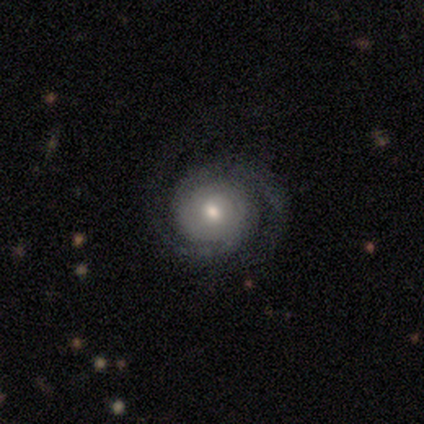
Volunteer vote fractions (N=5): smooth-or-featured: featured or disk: 80% | star or artifact: 20% | smooth: 0%
  disk-edge-on: no: 100% | yes: 0%
    bar: no: 50% | strong: 25% | weak: 25%
    has-spiral-arms: yes: 100% | no: 0%
      spiral-winding: tight: 75% | loose: 25% | medium: 0%
      spiral-arm-count: 2: 100% | 1: 0% | 3: 0% | 4: 0% | more than 4: 0% | can't tell: 0%
    bulge-size: small: 100% | dominant: 0% | large: 0% | moderate: 0% | none: 0%
  merging: none: 100% | minor disturbance: 0% | major disturbance: 0% | merger: 0%